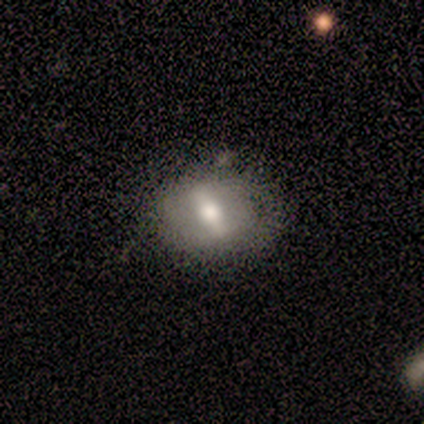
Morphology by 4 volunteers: Smooth or featured?
  - smooth: 50% * (tied)
  - featured or disk: 50% * (tied)
  - star or artifact: 0%
How rounded?
  - in between: 50% * (tied)
  - cigar-shaped: 50% * (tied)
  - round: 0%
Merging?
  - minor disturbance: 75% *
  - none: 25%
  - major disturbance: 0%
  - merger: 0%